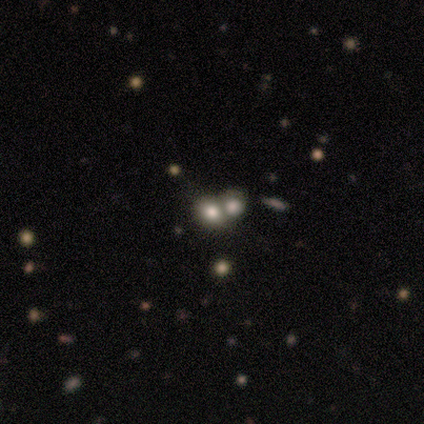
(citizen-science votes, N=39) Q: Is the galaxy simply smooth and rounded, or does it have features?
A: smooth — 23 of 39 (59%).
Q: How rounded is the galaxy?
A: round — 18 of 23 (78%).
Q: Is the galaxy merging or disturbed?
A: merger — 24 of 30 (80%).